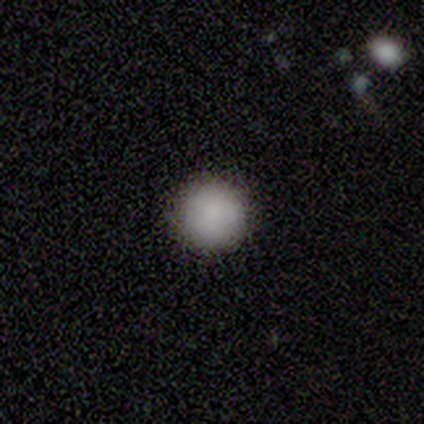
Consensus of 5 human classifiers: Smooth or featured? smooth (100%)
How rounded? round (100%)
Merging? none (100%)